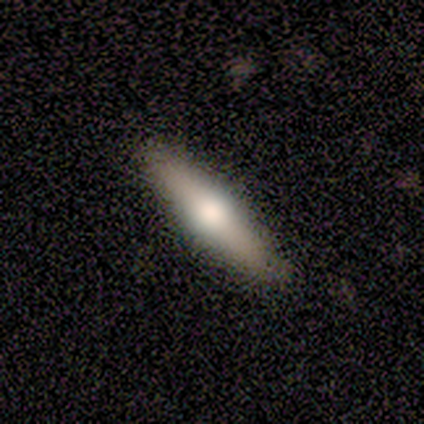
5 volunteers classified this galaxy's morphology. Q: Smooth or featured?
A: featured or disk (60%); runner-up: smooth (20%)
Q: Edge-on disk?
A: yes (100%)
Q: Edge-on bulge?
A: rounded (100%)
Q: Merging?
A: none (75%); runner-up: minor disturbance (25%)